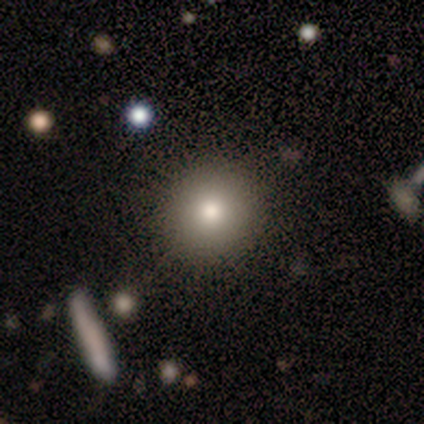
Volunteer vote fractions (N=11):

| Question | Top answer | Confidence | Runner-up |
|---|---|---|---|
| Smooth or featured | smooth | 82% | featured or disk (18%) |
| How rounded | round | 100% | — |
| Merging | none | 73% | minor disturbance (18%) |